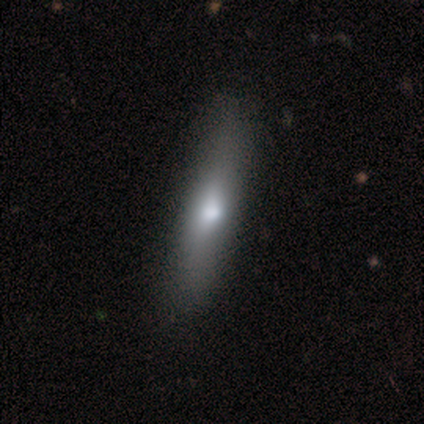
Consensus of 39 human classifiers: Morphology: type=smooth (77%); roundness=cigar-shaped (90%); merging=none (64%).